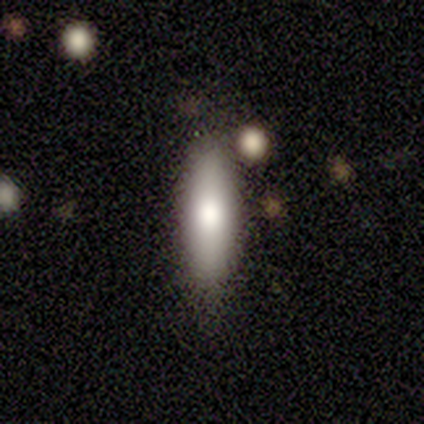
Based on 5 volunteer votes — A smooth galaxy with no disk features (80%) that is in between round and cigar-shaped (75%). Merging: none (80%).